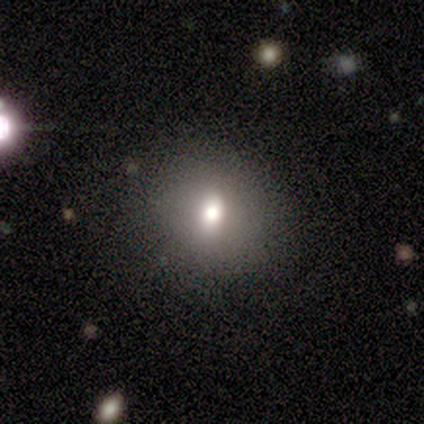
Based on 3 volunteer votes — smooth_or_featured: smooth (p=0.33) [tied with: featured or disk p=0.33, star or artifact p=0.33]
how_rounded: in between (p=1.00)
merging: none (p=1.00)